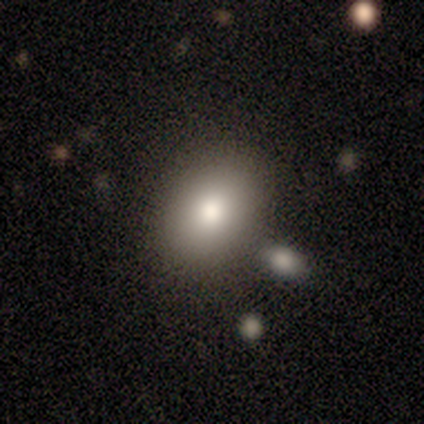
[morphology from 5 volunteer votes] A featured or disk galaxy (40%, tied with star or artifact) with no bar (100%), no spiral arms (100%) and a moderate central bulge (100%).

Vote fractions:
- Smooth or featured? featured or disk: 40% (tied) / star or artifact: 40% (tied) / smooth: 20%
- Edge-on disk? no: 100% / yes: 0%
- Bar? no: 100% / strong: 0% / weak: 0%
- Spiral arms? no: 100% / yes: 0%
- Bulge size? moderate: 100% / dominant: 0% / large: 0% / small: 0% / none: 0%
- Merging? none: 100% / minor disturbance: 0% / major disturbance: 0% / merger: 0%